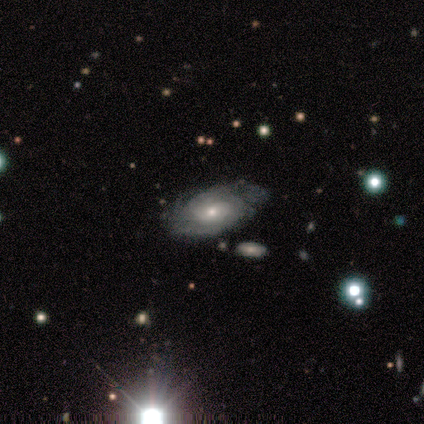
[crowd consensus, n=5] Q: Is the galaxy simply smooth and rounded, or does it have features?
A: featured or disk — 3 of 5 (60%).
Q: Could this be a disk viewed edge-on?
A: no — 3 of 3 (100%).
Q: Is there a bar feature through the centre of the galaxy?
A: no — 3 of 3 (100%).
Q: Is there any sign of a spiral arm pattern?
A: yes — 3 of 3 (100%).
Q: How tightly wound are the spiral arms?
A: tight — 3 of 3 (100%).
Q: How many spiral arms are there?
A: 2 — 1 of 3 (33%, tied with 4 and can't tell).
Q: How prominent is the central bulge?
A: small — 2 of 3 (67%).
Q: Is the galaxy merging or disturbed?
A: none — 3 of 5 (60%).